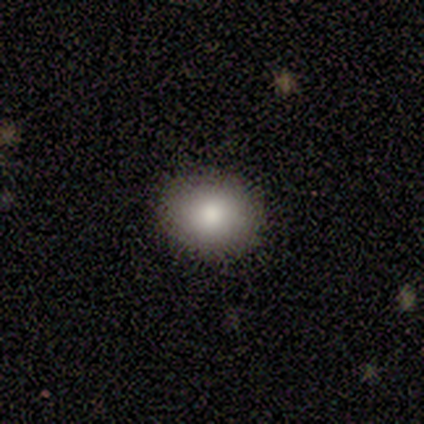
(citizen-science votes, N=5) A smooth galaxy with no disk features (60%) that is round (67%).

Vote fractions:
- Smooth or featured? smooth: 60% / featured or disk: 40% / star or artifact: 0%
- How rounded? round: 67% / in between: 33% / cigar-shaped: 0%
- Merging? none: 80% / minor disturbance: 20% / major disturbance: 0% / merger: 0%